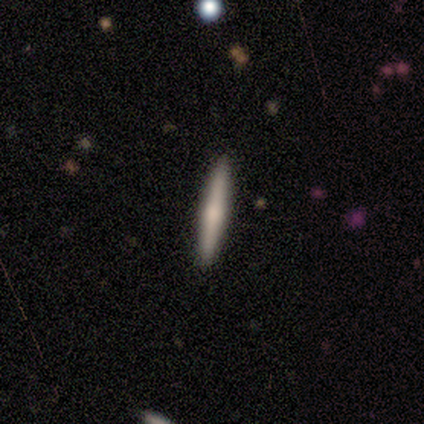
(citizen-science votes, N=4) Morphology: type=smooth (50%, tied with featured or disk); roundness=cigar-shaped (100%); merging=none (100%).